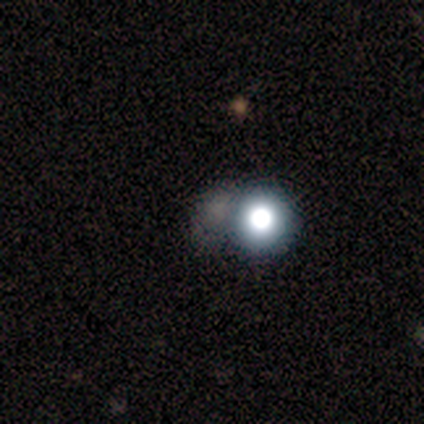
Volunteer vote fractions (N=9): smooth-or-featured: star or artifact: 67% | smooth: 22% | featured or disk: 11%